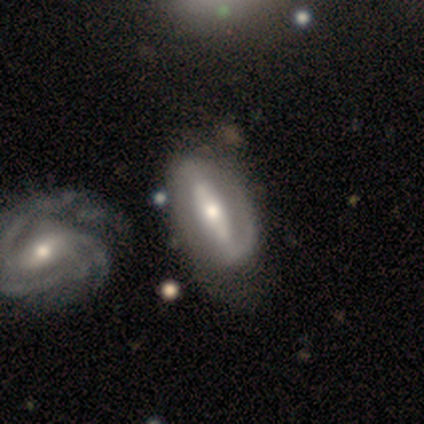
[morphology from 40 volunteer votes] Smooth or featured: featured or disk — 85% (smooth — 12%)
Edge-on disk: no — 82% (yes — 18%)
Bar: strong — 64% (weak — 25%)
Spiral arms: yes — 71% (no — 29%)
Spiral winding: medium — 50% (tight — 25%)
Spiral arm count: 1 — 35% (2 — 30%)
Bulge size: moderate — 61% (small — 25%)
Merging: none — 59% (minor disturbance — 23%)